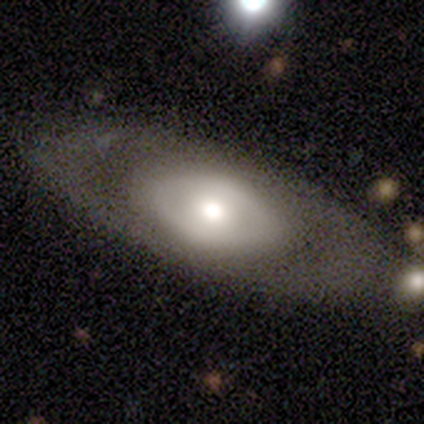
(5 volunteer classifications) A featured or disk galaxy (60%) with no bar (67%), no spiral arms (100%) and a moderate central bulge (67%). Merging: none (60%).